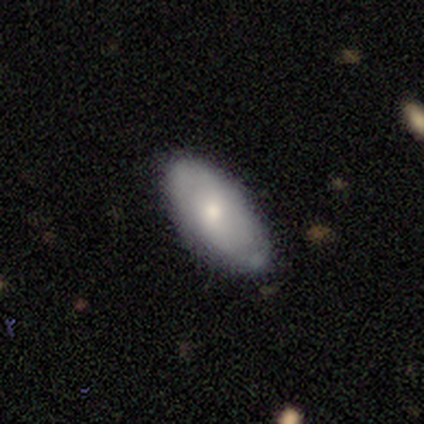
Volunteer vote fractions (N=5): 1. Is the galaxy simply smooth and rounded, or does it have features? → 60% smooth, 40% featured or disk, 0% star or artifact.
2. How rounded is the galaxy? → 100% in between, 0% round, 0% cigar-shaped.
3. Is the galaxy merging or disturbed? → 80% none, 20% minor disturbance, 0% major disturbance, 0% merger.